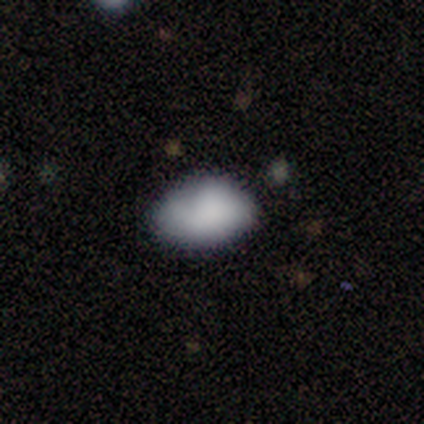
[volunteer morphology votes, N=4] Smooth or featured? 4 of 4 (100%) said smooth. How rounded? 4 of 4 (100%) said in between. Merging? 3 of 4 (75%) said none.